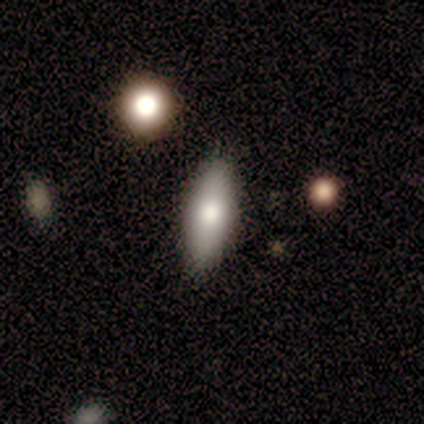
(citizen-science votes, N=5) Smooth or featured? 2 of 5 (40%, tied with featured or disk) said smooth. How rounded? 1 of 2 (50%, tied with cigar-shaped) said in between. Merging? 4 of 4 (100%) said none.